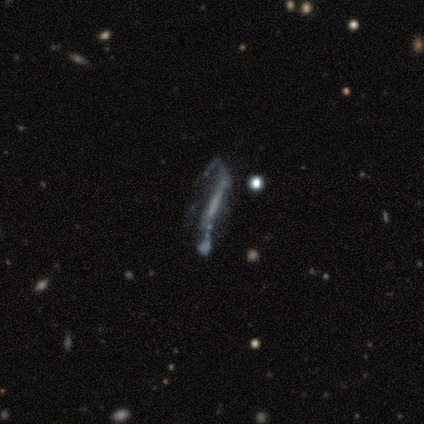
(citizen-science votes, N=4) Smooth or featured? 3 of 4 (75%) said featured or disk. Edge-on disk? 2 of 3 (67%) said no. Bar? 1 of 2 (50%, tied with no) said strong. Spiral arms? 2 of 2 (100%) said no. Bulge size? 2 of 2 (100%) said none. Merging? 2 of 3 (67%) said major disturbance.